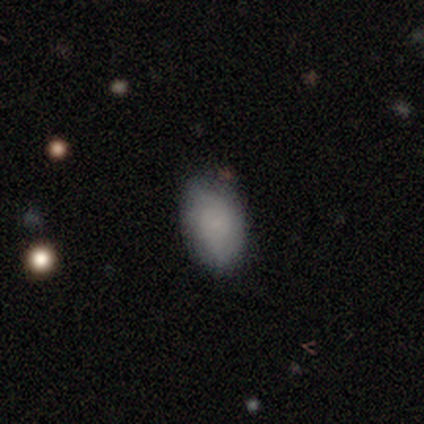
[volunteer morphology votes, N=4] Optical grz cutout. It shows a smooth galaxy with no disk features (75%) that is in between round and cigar-shaped (100%). Merging: none (75%).